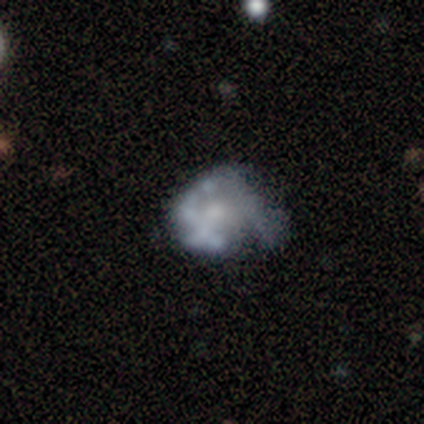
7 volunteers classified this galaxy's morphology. Overall: featured or disk (100%). Edge-on disk: no (100%). Bar: no (100%). Spiral arms: no (71%). Bulge size: moderate (29%, tied with small and none). Merging: minor disturbance (43%; major disturbance 29%).